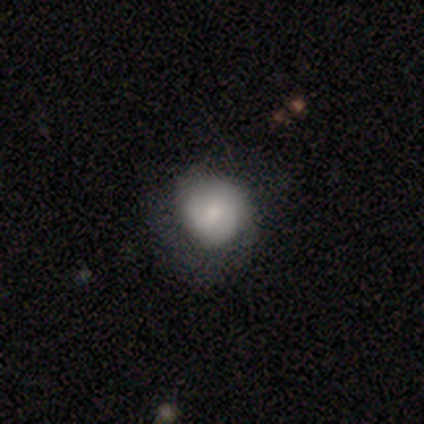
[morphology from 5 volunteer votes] This is likely a smooth galaxy (60%). How rounded: clearly round (100%). Merging: marginally none (40%, tied with minor disturbance).